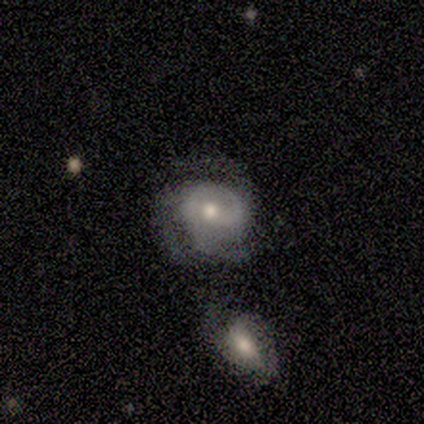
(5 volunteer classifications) Morphology: type=featured or disk (80%); edge-on=no (100%); bar=weak (75%); spiral arms=yes (75%); winding=tight (33%, tied with medium and loose); arm count=2 (33%, tied with 3 and can't tell); bulge=moderate (50%); merging=none (40%, tied with major disturbance).